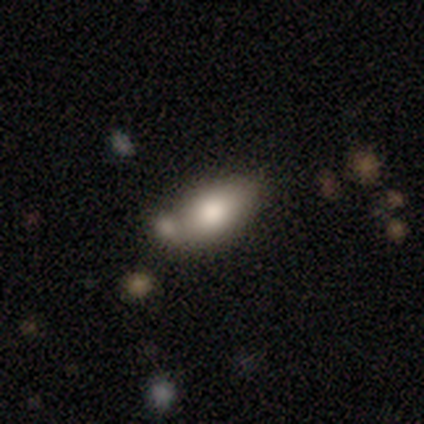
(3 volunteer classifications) Morphology: type=smooth (100%); roundness=in between (100%); merging=none (33%, tied with minor disturbance and merger).